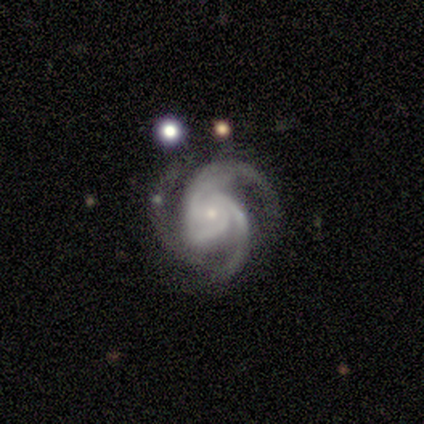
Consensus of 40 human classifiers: smooth-or-featured: featured or disk: 92% | star or artifact: 8% | smooth: 0%
  disk-edge-on: no: 100% | yes: 0%
    bar: no: 70% | weak: 27% | strong: 3%
    has-spiral-arms: yes: 100% | no: 0%
      spiral-winding: medium: 46% | tight: 38% | loose: 16%
      spiral-arm-count: 3: 92% | 2: 5% | can't tell: 3% | 1: 0% | 4: 0% | more than 4: 0%
    bulge-size: small: 76% | moderate: 22% | large: 3% | dominant: 0% | none: 0%
  merging: none: 65% | minor disturbance: 27% | major disturbance: 5% | merger: 3%